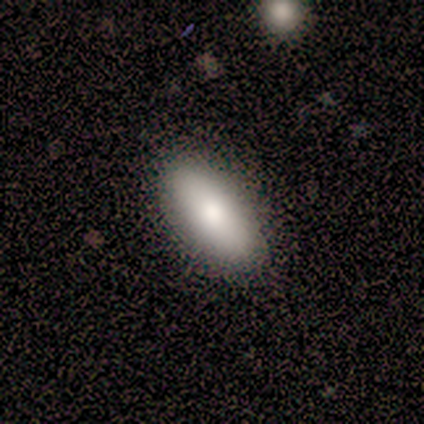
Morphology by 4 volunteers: type=smooth (100%); roundness=in between (100%); merging=none (100%).